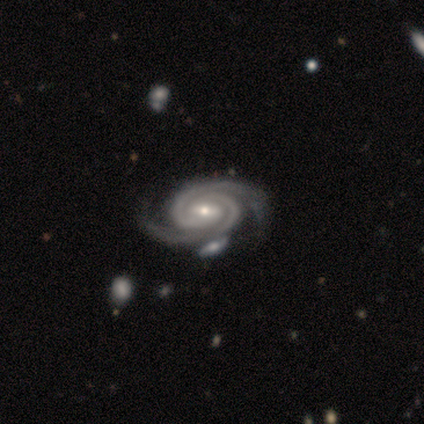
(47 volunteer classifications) Q: Smooth or featured?
A: featured or disk (91%); runner-up: smooth (4%)
Q: Edge-on disk?
A: no (100%)
Q: Bar?
A: weak (44%); runner-up: no (30%)
Q: Spiral arms?
A: yes (100%)
Q: Spiral winding?
A: tight (72%); runner-up: medium (26%)
Q: Spiral arm count?
A: 2 (93%); runner-up: can't tell (5%)
Q: Bulge size?
A: small (58%); runner-up: moderate (35%)
Q: Merging?
A: none (69%); runner-up: merger (16%)